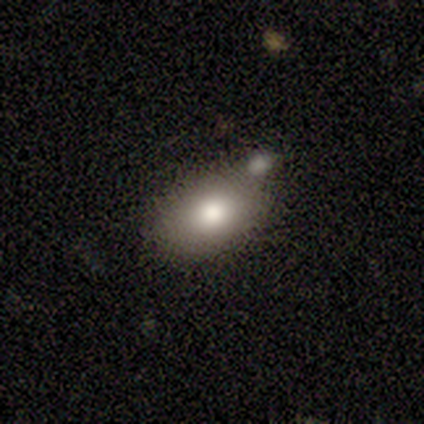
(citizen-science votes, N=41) smooth_or_featured: smooth (p=0.66) [alt: featured or disk p=0.20]
how_rounded: in between (p=0.89) [alt: round p=0.07]
merging: none (p=0.49) [alt: merger p=0.34]